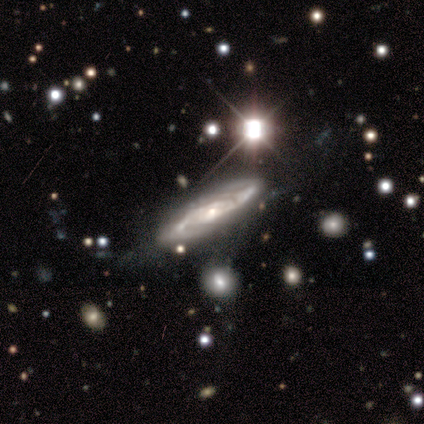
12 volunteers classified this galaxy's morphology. Smooth or featured? 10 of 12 (83%) said featured or disk. Edge-on disk? 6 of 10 (60%) said no. Bar? 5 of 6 (83%) said no. Spiral arms? 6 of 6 (100%) said yes. Spiral winding? 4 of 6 (67%) said medium. Spiral arm count? 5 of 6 (83%) said 2. Bulge size? 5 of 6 (83%) said small. Merging? 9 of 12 (75%) said none.